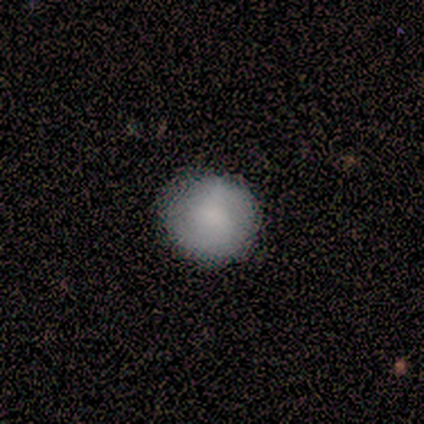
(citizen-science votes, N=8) Smooth or featured? smooth (100%)
How rounded? round (100%)
Merging? none (88%)